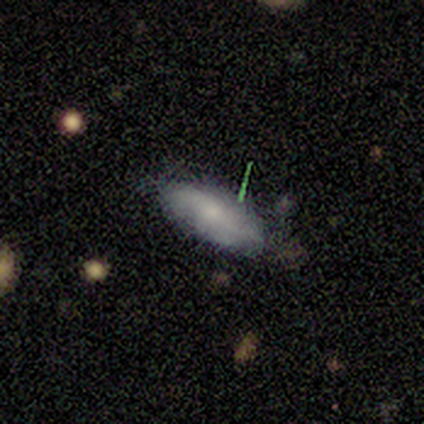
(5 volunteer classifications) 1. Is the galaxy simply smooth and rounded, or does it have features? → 80% smooth, 20% featured or disk, 0% star or artifact.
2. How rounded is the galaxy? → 100% in between, 0% round, 0% cigar-shaped.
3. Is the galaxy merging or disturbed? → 100% none, 0% minor disturbance, 0% major disturbance, 0% merger.